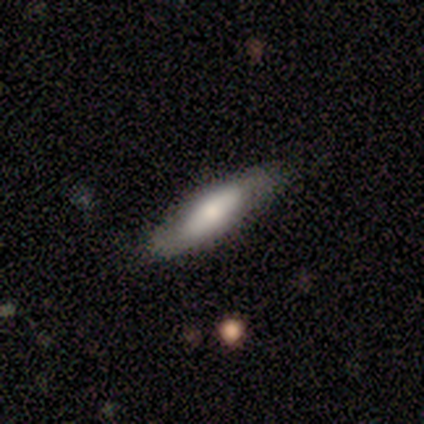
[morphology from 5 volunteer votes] Smooth or featured? 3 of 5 (60%) said smooth. How rounded? 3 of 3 (100%) said in between. Merging? 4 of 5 (80%) said none.